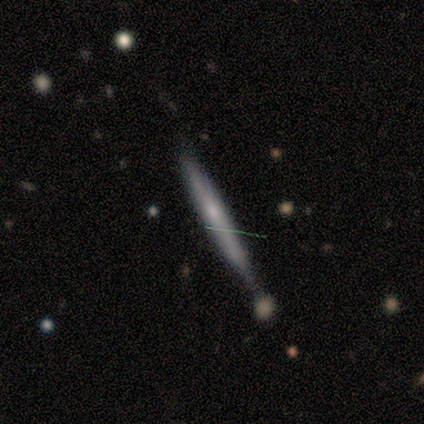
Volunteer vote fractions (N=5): This appears to be a smooth galaxy with no disk features (40%, tied with featured or disk) that is cigar-shaped (100%). Merging: merger (75%).